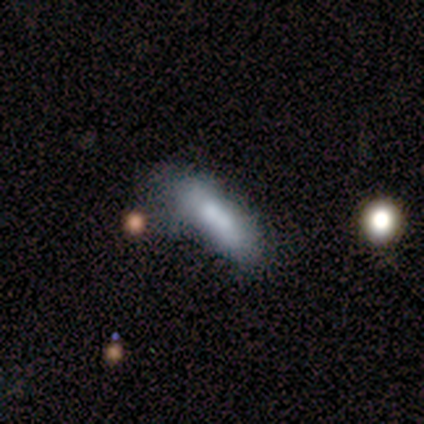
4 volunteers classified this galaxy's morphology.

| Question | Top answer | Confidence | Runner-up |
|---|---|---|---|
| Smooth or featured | smooth | 75% | featured or disk (25%) |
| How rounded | in between | 67% | cigar-shaped (33%) |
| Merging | minor disturbance | 50% | major disturbance (25%) |